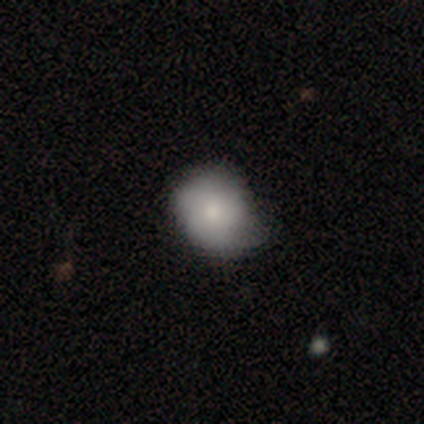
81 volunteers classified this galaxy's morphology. Smooth or featured: smooth — 79% (featured or disk — 16%)
How rounded: round — 59% (in between — 41%)
Merging: none — 48% (tied with minor disturbance — 48%)